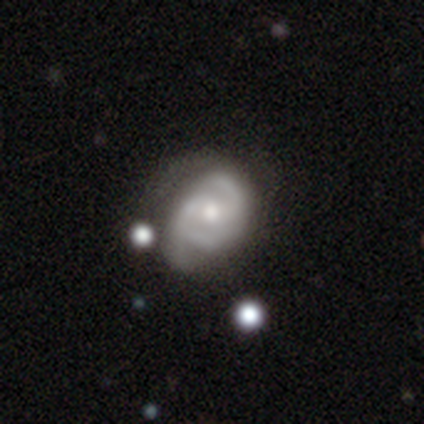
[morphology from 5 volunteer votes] type=featured or disk (80%); edge-on=no (100%); bar=weak (50%, tied with no); spiral arms=yes (100%); winding=tight (75%); arm count=2 (75%); bulge=moderate (75%); merging=none (40%, tied with minor disturbance).